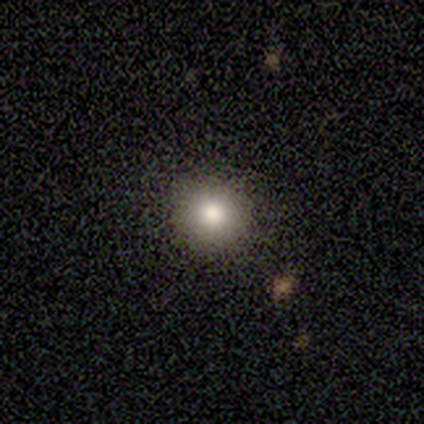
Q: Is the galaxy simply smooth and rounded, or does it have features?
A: smooth — 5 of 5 (100%).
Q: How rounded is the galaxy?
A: round — 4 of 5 (80%).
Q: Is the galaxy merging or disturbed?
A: none — 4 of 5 (80%).